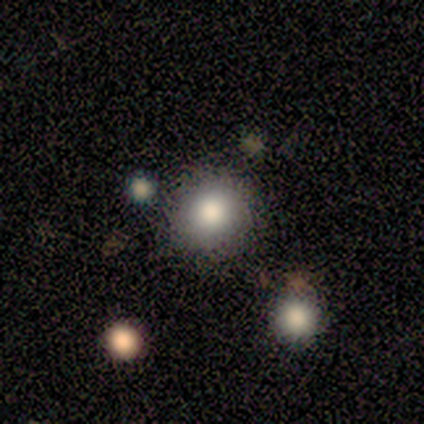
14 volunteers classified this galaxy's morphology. This is likely a smooth galaxy (79%). How rounded: clearly round (91%). Merging: clearly none (92%).